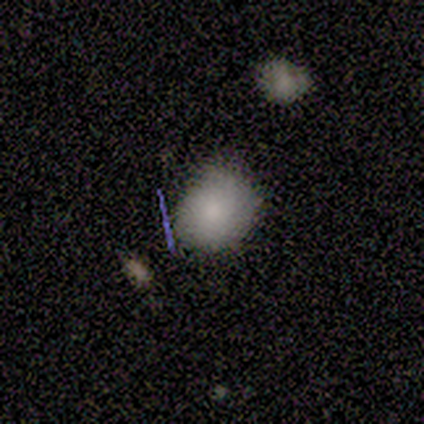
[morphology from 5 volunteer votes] A smooth galaxy with no disk features (80%) that is round (50%, tied with in between). Merging: none (60%).